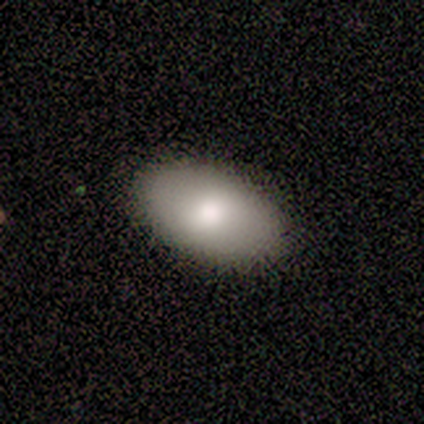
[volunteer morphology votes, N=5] A smooth galaxy with no disk features (100%) that is in between round and cigar-shaped (100%). Merging: none (80%).